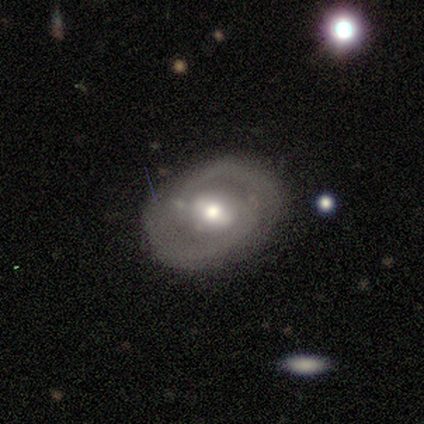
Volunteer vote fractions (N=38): featured or disk 87%, smooth 11%, star or artifact 3%. Down the decision tree: edge-on disk — no (97%); bar — weak (53%); spiral arms — yes (75%); spiral arm count — 2 (71%); spiral winding — medium (62%); bulge size — moderate (53%); merging — none (73%).